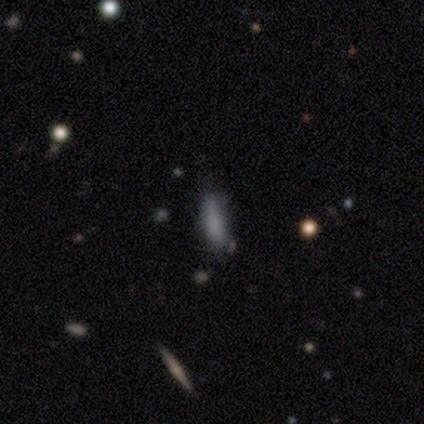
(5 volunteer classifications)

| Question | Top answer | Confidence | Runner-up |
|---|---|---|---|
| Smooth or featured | smooth | 100% | — |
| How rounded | in between | 60% | cigar-shaped (40%) |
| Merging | none | 60% | minor disturbance (20%) |